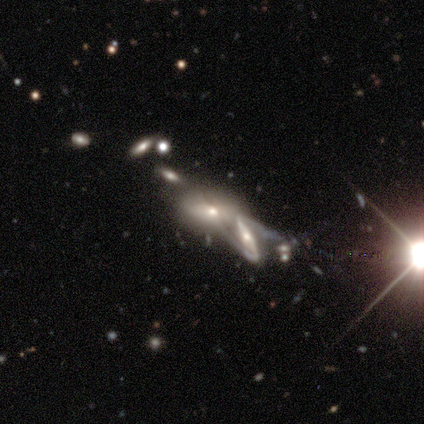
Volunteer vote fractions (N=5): smooth_or_featured: smooth (p=0.60) [alt: featured or disk p=0.20]
how_rounded: in between (p=0.67) [alt: round p=0.33]
merging: merger (p=0.75) [alt: none p=0.25]